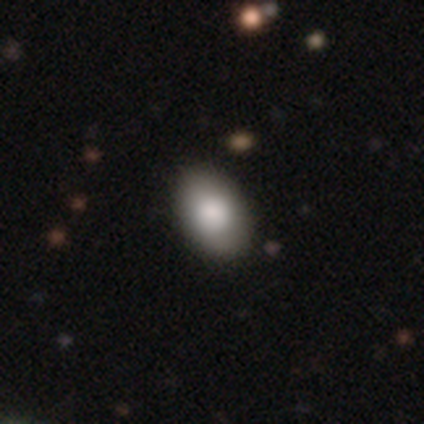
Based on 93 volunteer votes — Q: Smooth or featured?
A: smooth (85%); runner-up: featured or disk (10%)
Q: How rounded?
A: in between (91%); runner-up: round (8%)
Q: Merging?
A: none (84%); runner-up: minor disturbance (14%)